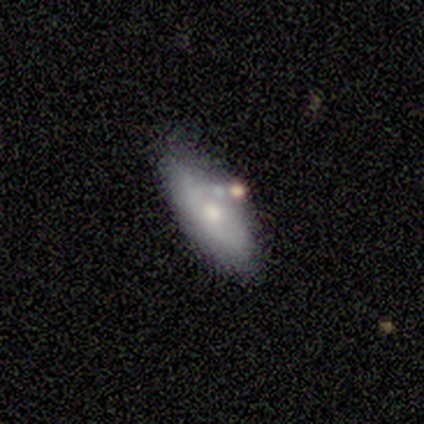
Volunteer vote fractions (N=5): This is clearly a featured or disk galaxy (80%). It is clearly not viewed edge-on (100%). Bar: likely no (75%). Spiral arm pattern: clearly no (100%). Central bulge: possibly moderate (50%, tied with small). Merging: marginally none (40%, tied with minor disturbance).